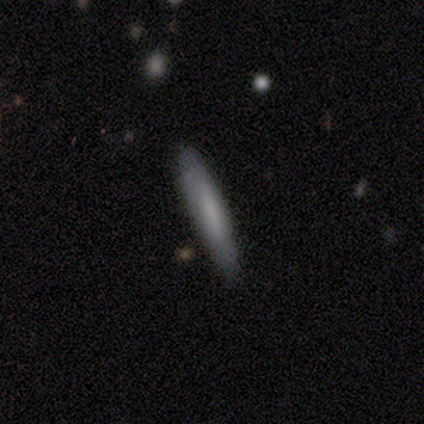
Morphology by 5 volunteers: Overall: smooth (60%; featured or disk 40%). How rounded: cigar-shaped (100%). Merging: none (80%).